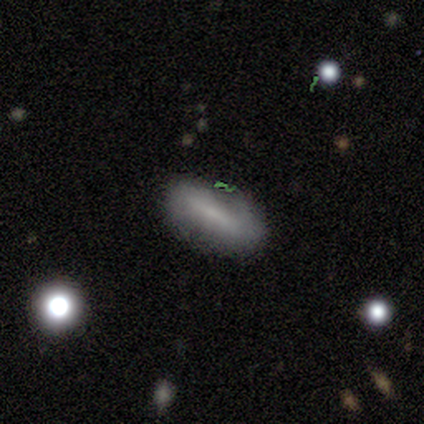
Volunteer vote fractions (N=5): Smooth or featured?
  - smooth: 80% *
  - featured or disk: 20%
  - star or artifact: 0%
How rounded?
  - in between: 50% * (tied)
  - cigar-shaped: 50% * (tied)
  - round: 0%
Merging?
  - none: 100% *
  - minor disturbance: 0%
  - major disturbance: 0%
  - merger: 0%